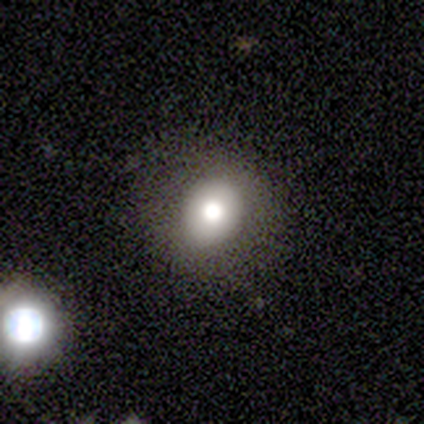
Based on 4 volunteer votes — smooth-or-featured: smooth: 75% | star or artifact: 25% | featured or disk: 0%
  how-rounded: round: 67% | in between: 33% | cigar-shaped: 0%
  merging: none: 33% (tied) | minor disturbance: 33% (tied) | major disturbance: 33% (tied) | merger: 0%